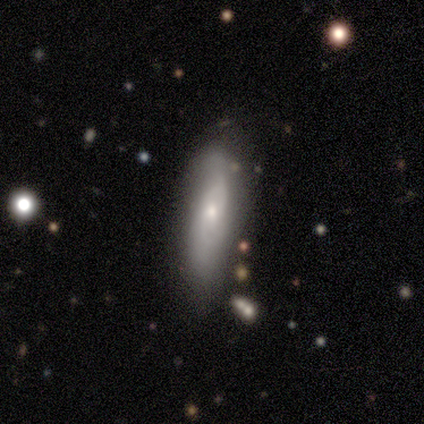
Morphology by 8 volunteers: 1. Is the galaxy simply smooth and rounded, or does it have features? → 50% smooth (tied), 50% featured or disk (tied), 0% star or artifact.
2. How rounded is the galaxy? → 75% in between, 25% cigar-shaped, 0% round.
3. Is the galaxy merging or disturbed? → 50% minor disturbance, 25% none, 12% major disturbance, 12% merger.